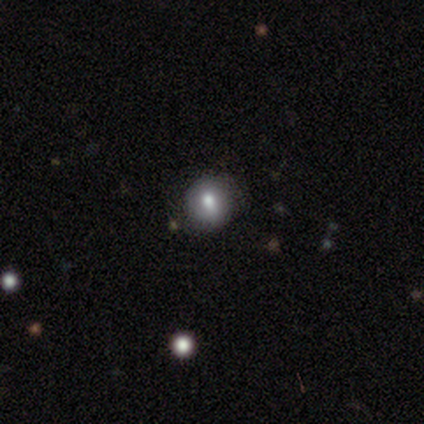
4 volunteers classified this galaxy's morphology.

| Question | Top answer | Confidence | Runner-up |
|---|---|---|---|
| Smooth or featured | smooth | 75% | featured or disk (25%) |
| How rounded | round | 100% | — |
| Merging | none | 75% | minor disturbance (25%) |